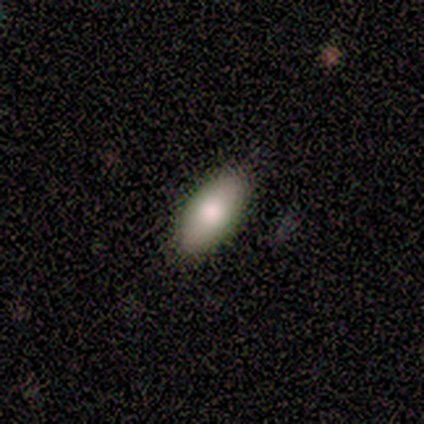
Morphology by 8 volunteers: Overall: smooth (88%). How rounded: in between (100%). Merging: none (100%).